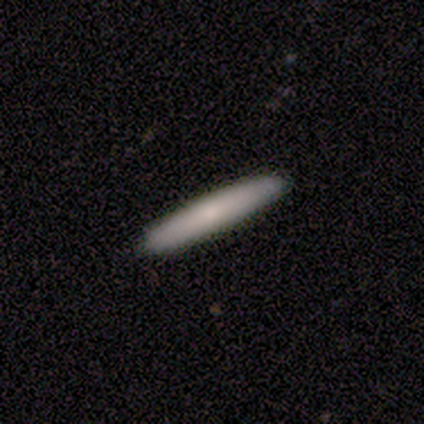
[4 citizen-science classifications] Smooth or featured? 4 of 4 (100%) said smooth. How rounded? 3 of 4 (75%) said cigar-shaped. Merging? 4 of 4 (100%) said none.